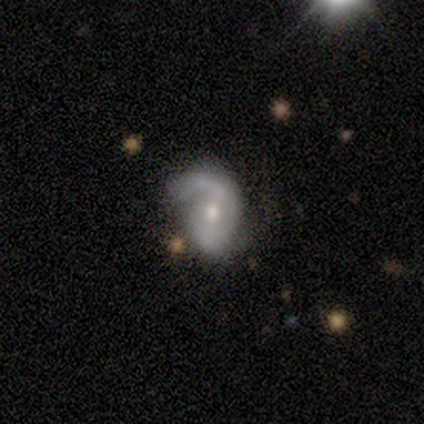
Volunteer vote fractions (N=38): Smooth or featured? featured or disk (82%)
Edge-on disk? no (94%)
Bar? no (41%)
Spiral arms? yes (100%)
Spiral winding? loose (55%)
Spiral arm count? 2 (72%)
Bulge size? moderate (55%)
Merging? none (66%)